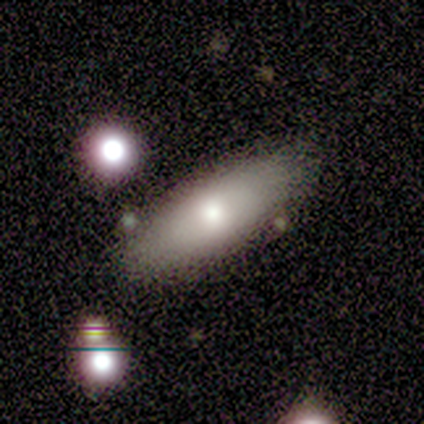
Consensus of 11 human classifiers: smooth_or_featured: smooth (p=0.45) [tied with: featured or disk p=0.45]
how_rounded: in between (p=0.60) [alt: cigar-shaped p=0.40]
merging: none (p=0.70) [alt: minor disturbance p=0.20]